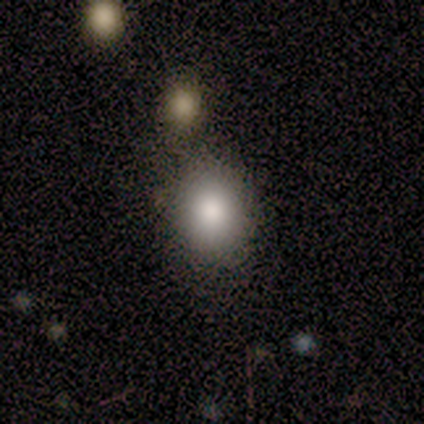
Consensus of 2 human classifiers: A smooth galaxy with no disk features (100%) that is round (100%). Merging: none (50%, tied with merger).